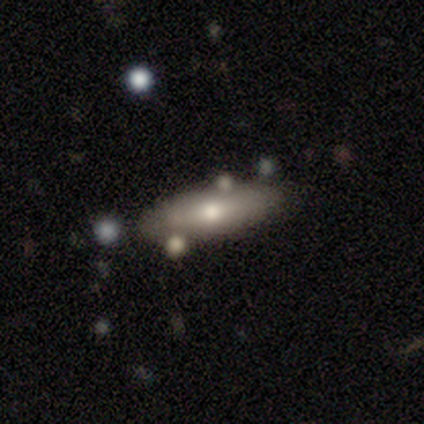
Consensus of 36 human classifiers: Smooth or featured? 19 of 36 (53%) said smooth. How rounded? 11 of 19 (58%) said cigar-shaped. Merging? 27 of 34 (79%) said none.